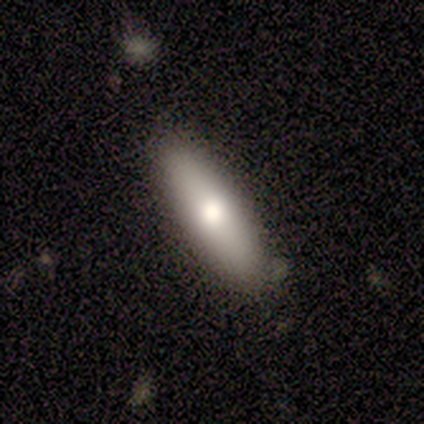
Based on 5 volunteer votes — Overall: smooth (60%; featured or disk 20%). How rounded: in between (67%; cigar-shaped 33%). Merging: none (100%).